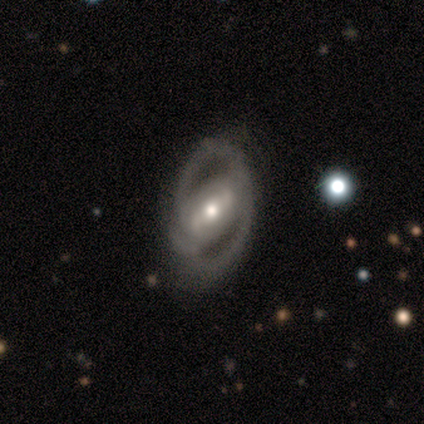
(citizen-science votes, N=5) Volunteers were most divided on "bar": weak: 60%, strong: 40%, no: 0%. More confident: smooth or featured — featured or disk (100%); edge-on disk — no (100%); bulge size — moderate (80%); spiral winding — tight (67%); spiral arm count — can't tell (67%); spiral arms — yes (60%); merging — none (60%).